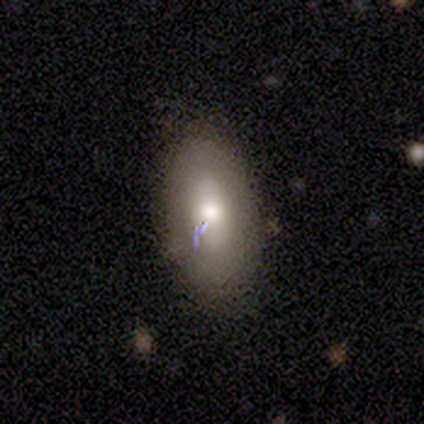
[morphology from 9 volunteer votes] This appears to be a smooth galaxy with no disk features (89%) that is in between round and cigar-shaped (100%). Merging: none (78%).